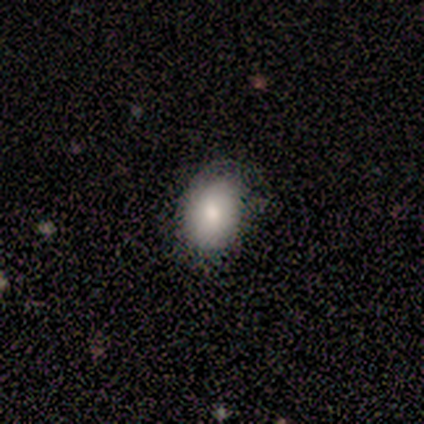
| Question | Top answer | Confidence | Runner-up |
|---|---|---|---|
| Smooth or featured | smooth | 100% | — |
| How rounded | in between | 100% | — |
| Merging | none | 75% | minor disturbance (25%) |